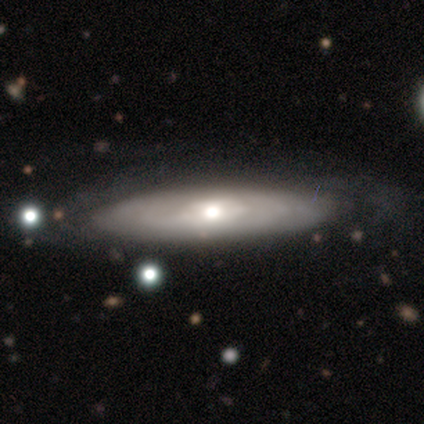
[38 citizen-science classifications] Volunteers were most divided on "edge-on disk": yes: 55%, no: 45%. More confident: edge-on bulge — rounded (81%); smooth or featured — featured or disk (76%); merging — none (68%).